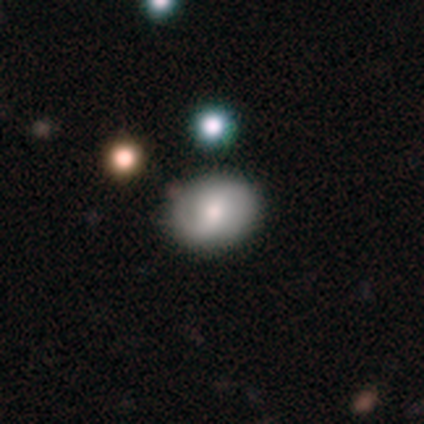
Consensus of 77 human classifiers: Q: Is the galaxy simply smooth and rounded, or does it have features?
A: smooth — 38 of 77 (49%).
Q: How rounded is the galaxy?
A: in between — 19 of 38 (50%).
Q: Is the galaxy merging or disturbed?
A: none — 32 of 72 (44%).